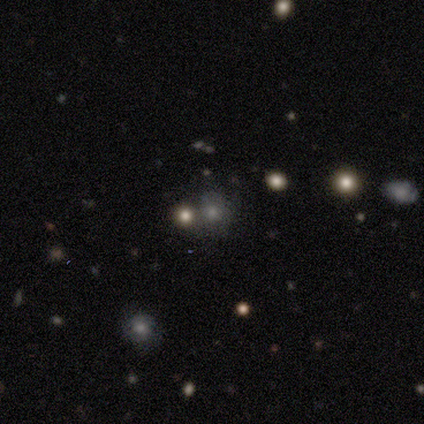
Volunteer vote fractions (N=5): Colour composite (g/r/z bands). It shows a smooth galaxy with no disk features (40%, tied with star or artifact) that is round (100%). Merging: merger (67%).